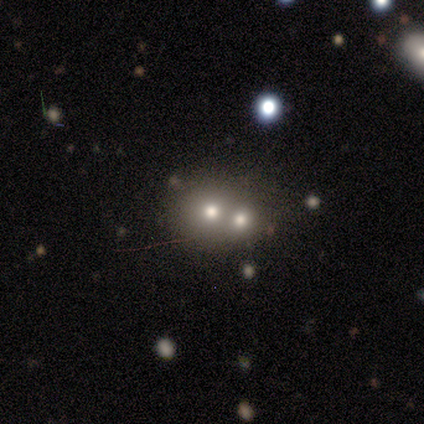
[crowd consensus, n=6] Smooth or featured? smooth (83%)
How rounded? round (100%)
Merging? merger (67%)